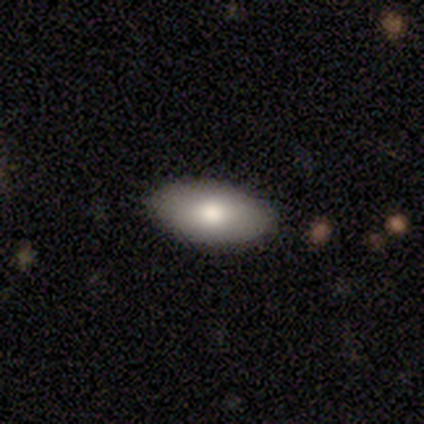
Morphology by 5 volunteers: A smooth galaxy with no disk features (100%) that is in between round and cigar-shaped (100%). Merging: none (100%).